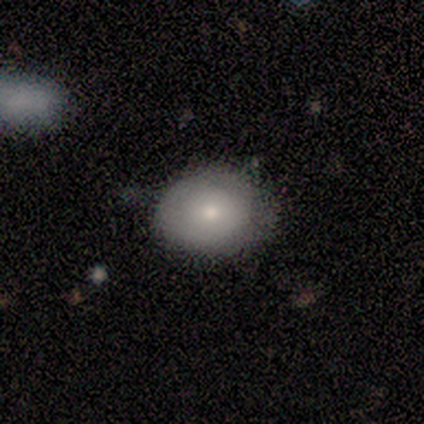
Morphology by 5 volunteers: Q: Smooth or featured?
A: smooth (60%); runner-up: featured or disk (40%)
Q: How rounded?
A: in between (67%); runner-up: round (33%)
Q: Merging?
A: minor disturbance (60%); runner-up: none (40%)